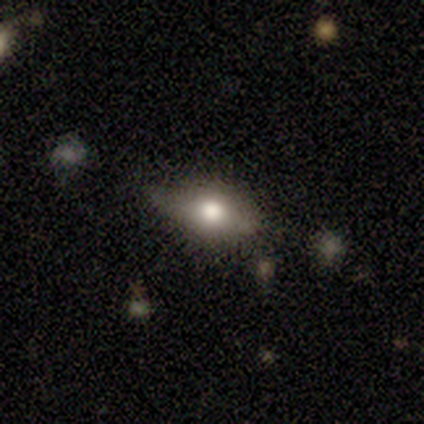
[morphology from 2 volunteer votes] Smooth or featured? smooth (100%)
How rounded? in between (100%)
Merging? none (100%)